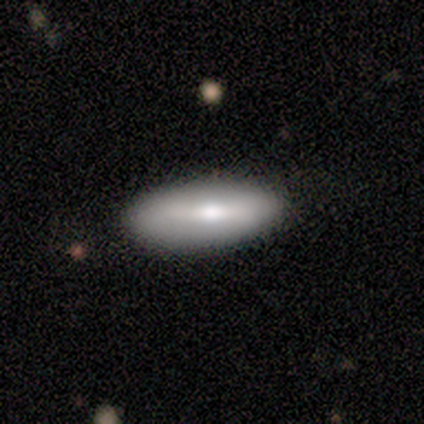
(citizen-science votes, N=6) smooth-or-featured: featured or disk: 50% | smooth: 33% | star or artifact: 17%
  disk-edge-on: no: 100% | yes: 0%
    bar: weak: 100% | strong: 0% | no: 0%
    has-spiral-arms: no: 100% | yes: 0%
    bulge-size: moderate: 67% | small: 33% | dominant: 0% | large: 0% | none: 0%
  merging: none: 100% | minor disturbance: 0% | major disturbance: 0% | merger: 0%